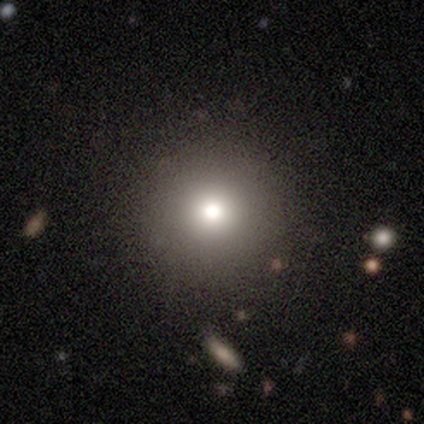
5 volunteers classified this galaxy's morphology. Smooth or featured? smooth (100%)
How rounded? round (100%)
Merging? none (100%)